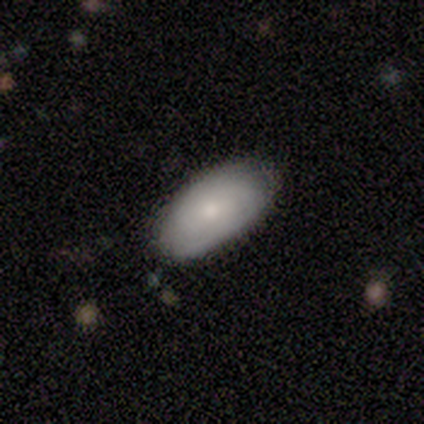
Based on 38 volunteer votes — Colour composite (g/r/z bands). It shows a smooth galaxy with no disk features (71%) that is in between round and cigar-shaped (96%). Merging: none (73%).